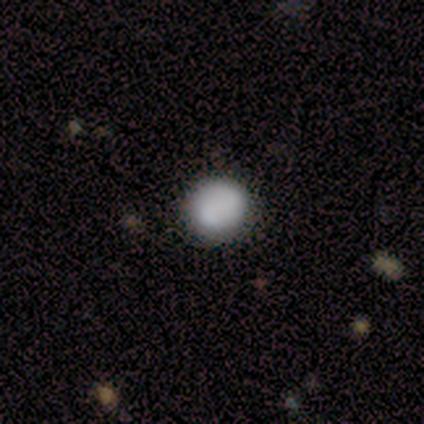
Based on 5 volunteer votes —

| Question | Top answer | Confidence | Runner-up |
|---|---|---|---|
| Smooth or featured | smooth | 60% | star or artifact (40%) |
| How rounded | round | 67% | in between (33%) |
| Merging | none | 100% | — |